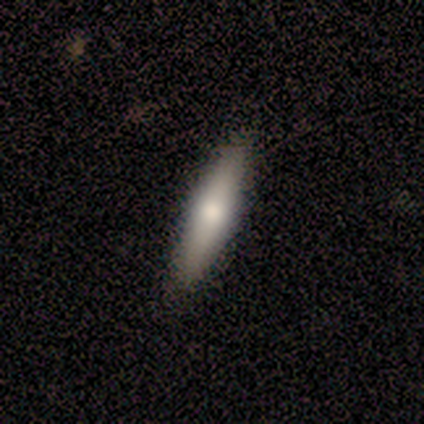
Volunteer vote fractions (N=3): featured or disk 67%, smooth 33%, star or artifact 0%. Down the decision tree: edge-on disk — yes (100%); edge-on bulge — none (50%, tied with rounded); merging — none (100%).